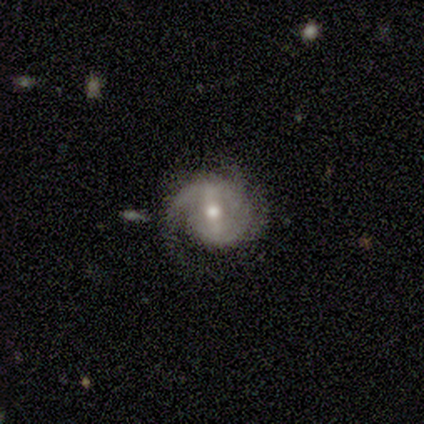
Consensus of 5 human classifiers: smooth_or_featured: featured or disk (p=1.00)
disk_edge_on: no (p=1.00)
bar: strong (p=0.80) [alt: weak p=0.20]
has_spiral_arms: yes (p=1.00)
spiral_winding: medium (p=0.60) [alt: tight p=0.40]
spiral_arm_count: 2 (p=1.00)
bulge_size: moderate (p=1.00)
merging: none (p=1.00)